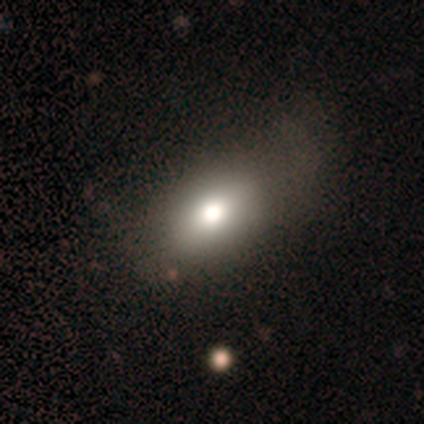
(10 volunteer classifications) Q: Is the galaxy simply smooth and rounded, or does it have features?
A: smooth — 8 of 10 (80%).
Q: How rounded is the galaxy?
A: in between — 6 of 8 (75%).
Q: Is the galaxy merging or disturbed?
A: none — 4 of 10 (40%).